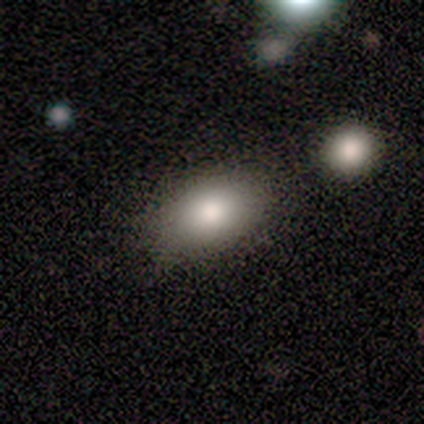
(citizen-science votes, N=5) smooth 60%, featured or disk 20%, star or artifact 20%. Down the decision tree: how rounded — round (67%); merging — none (75%).